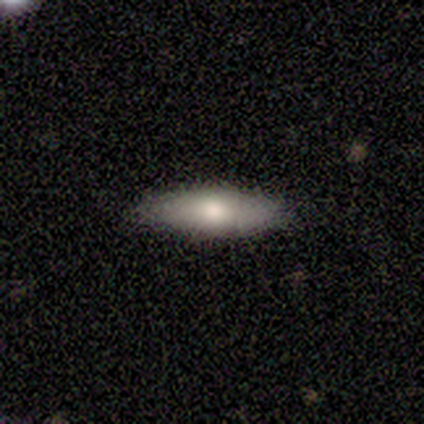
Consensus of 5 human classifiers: This appears to be a smooth galaxy with no disk features (80%) that is in between round and cigar-shaped (50%). Merging: none (50%).